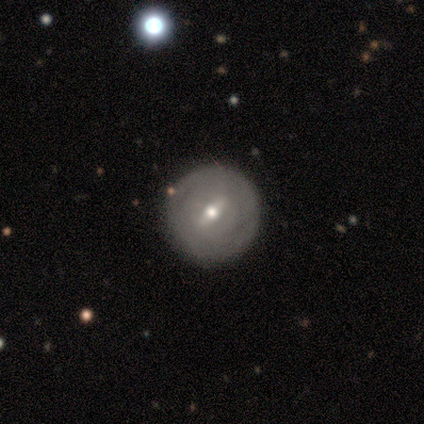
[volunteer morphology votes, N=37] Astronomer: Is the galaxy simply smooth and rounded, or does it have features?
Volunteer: featured or disk — 76%.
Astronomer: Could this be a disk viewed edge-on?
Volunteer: no — 75%.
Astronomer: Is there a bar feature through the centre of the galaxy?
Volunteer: weak — 67%.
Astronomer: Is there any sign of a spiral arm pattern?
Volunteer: yes — 52% (runner-up: no, 48%).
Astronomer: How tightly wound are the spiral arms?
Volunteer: tight — 91%.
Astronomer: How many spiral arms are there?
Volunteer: can't tell — 82%.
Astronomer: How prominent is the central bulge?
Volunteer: moderate — 48%, tied with small at 48%.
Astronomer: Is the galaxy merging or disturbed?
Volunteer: none — 74%.